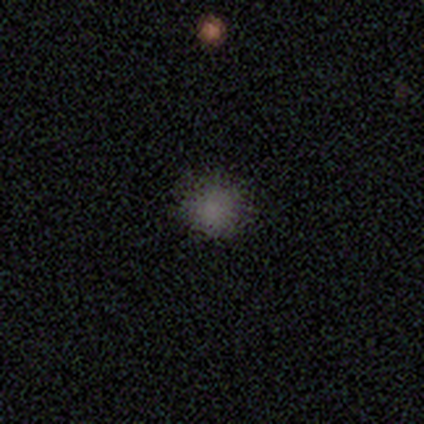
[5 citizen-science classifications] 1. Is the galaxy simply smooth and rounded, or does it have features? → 80% smooth, 20% featured or disk, 0% star or artifact.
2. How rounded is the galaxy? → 100% round, 0% in between, 0% cigar-shaped.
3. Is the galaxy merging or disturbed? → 80% none, 20% minor disturbance, 0% major disturbance, 0% merger.